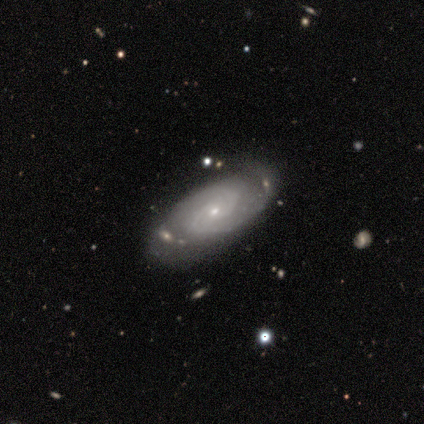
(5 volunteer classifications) A featured or disk galaxy (100%) with no bar (80%), 2 (100%) tight (60%) spiral arms (100%) and a small central bulge (80%). Merging: none (60%).